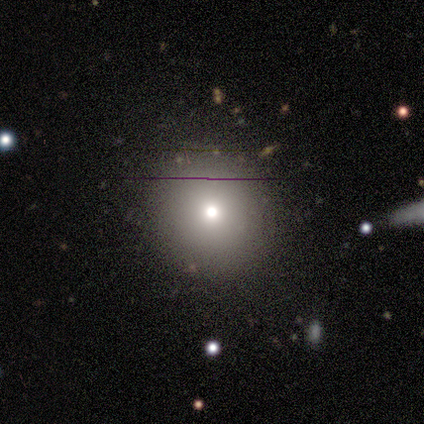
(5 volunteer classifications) Morphology: type=smooth (100%); roundness=round (100%); merging=none (100%).